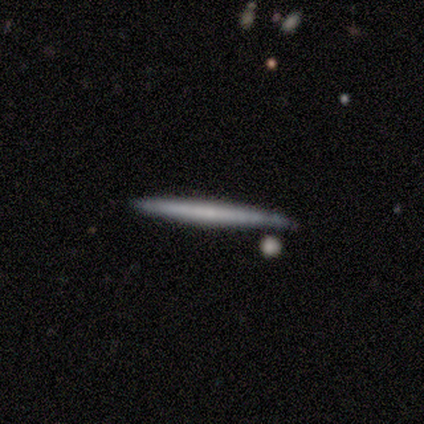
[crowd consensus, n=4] This appears to be a smooth galaxy with no disk features (75%) that is cigar-shaped (100%). Merging: none (75%).